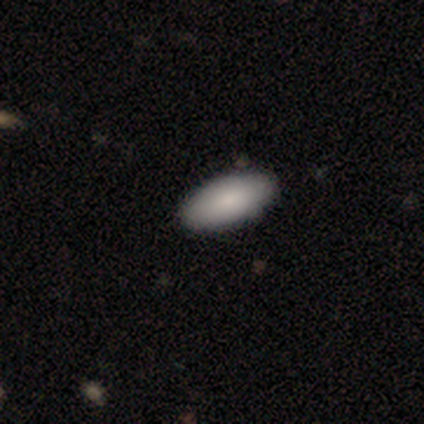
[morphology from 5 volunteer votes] type=smooth (100%); roundness=in between (100%); merging=none (100%).